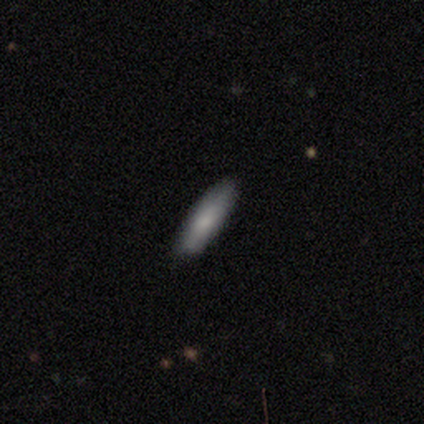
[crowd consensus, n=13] A smooth galaxy with no disk features (92%) that is cigar-shaped (67%). Merging: none (92%).